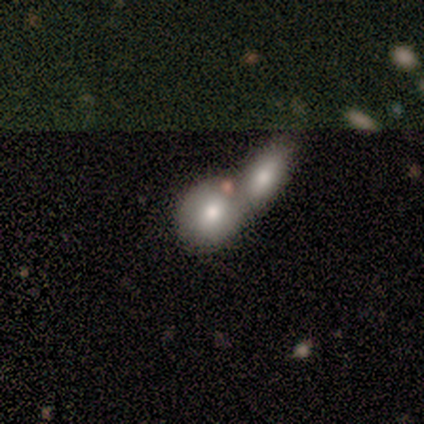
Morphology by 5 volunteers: A smooth galaxy with no disk features (60%) that is round (67%).

Vote fractions:
- Smooth or featured? smooth: 60% / featured or disk: 40% / star or artifact: 0%
- How rounded? round: 67% / in between: 33% / cigar-shaped: 0%
- Merging? merger: 100% / none: 0% / minor disturbance: 0% / major disturbance: 0%